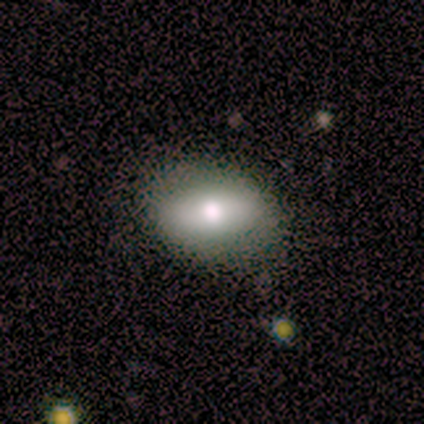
smooth_or_featured: smooth (p=0.80) [alt: featured or disk p=0.20]
how_rounded: in between (p=0.88) [alt: round p=0.12]
merging: none (p=0.80) [alt: minor disturbance p=0.20]